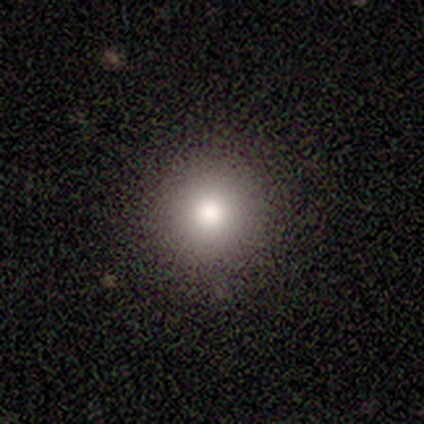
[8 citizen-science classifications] Smooth or featured? 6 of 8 (75%) said smooth. How rounded? 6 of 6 (100%) said round. Merging? 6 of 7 (86%) said none.